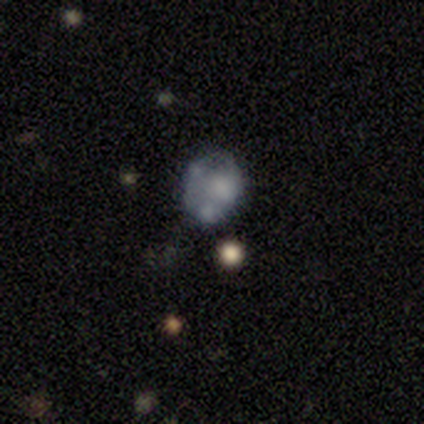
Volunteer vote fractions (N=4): A featured or disk galaxy (50%) with no bar (100%), no spiral arms (100%) and a small central bulge (50%, tied with none).

Vote fractions:
- Smooth or featured? featured or disk: 50% / smooth: 25% / star or artifact: 25%
- Edge-on disk? no: 100% / yes: 0%
- Bar? no: 100% / strong: 0% / weak: 0%
- Spiral arms? no: 100% / yes: 0%
- Bulge size? small: 50% (tied) / none: 50% (tied) / dominant: 0% / large: 0% / moderate: 0%
- Merging? minor disturbance: 67% / none: 33% / major disturbance: 0% / merger: 0%